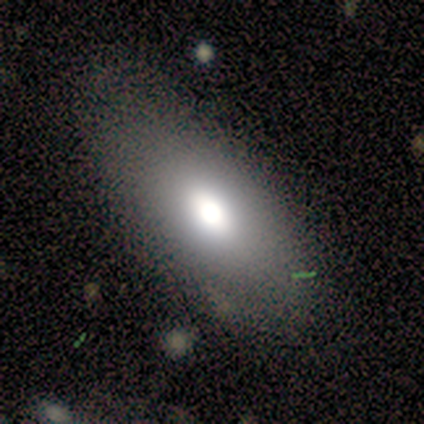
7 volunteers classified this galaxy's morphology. type=smooth (71%); roundness=in between (100%); merging=none (67%).